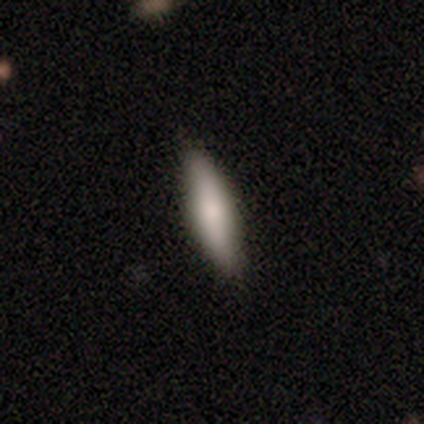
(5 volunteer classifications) Smooth or featured: smooth — 60% (featured or disk — 40%)
How rounded: cigar-shaped — 100%
Merging: none — 100%